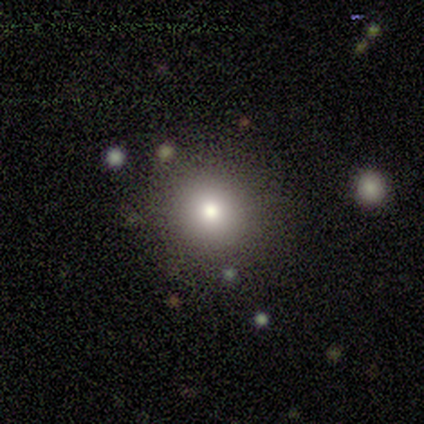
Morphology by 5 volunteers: smooth 60%, star or artifact 40%, featured or disk 0%. Down the decision tree: how rounded — round (100%); merging — none (100%).